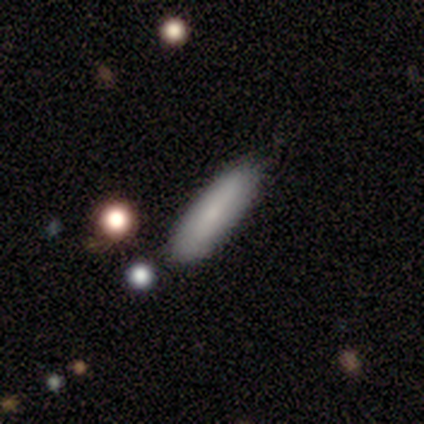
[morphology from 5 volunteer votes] A smooth galaxy with no disk features (60%) that is cigar-shaped (67%). Merging: minor disturbance (60%).